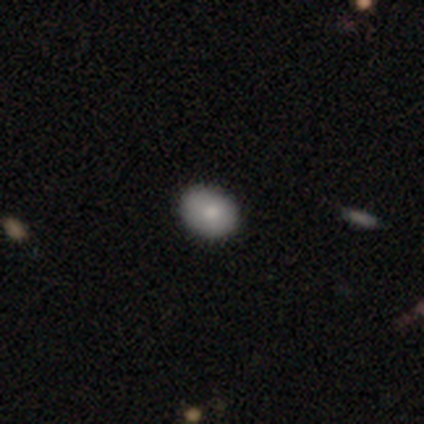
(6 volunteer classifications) Morphology: type=smooth (67%); roundness=in between (75%); merging=none (100%).